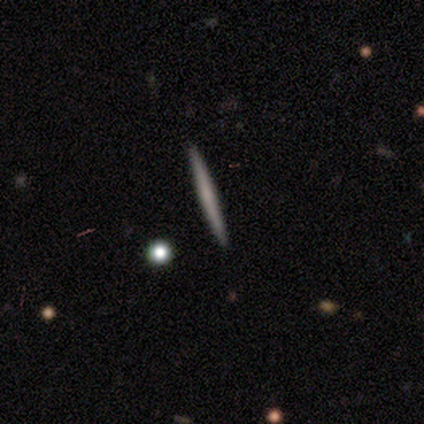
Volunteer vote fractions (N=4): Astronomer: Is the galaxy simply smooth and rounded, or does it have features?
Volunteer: smooth — 50%, tied with featured or disk at 50%.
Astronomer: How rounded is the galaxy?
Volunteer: cigar-shaped — 100%.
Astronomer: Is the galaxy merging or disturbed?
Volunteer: none — 100%.